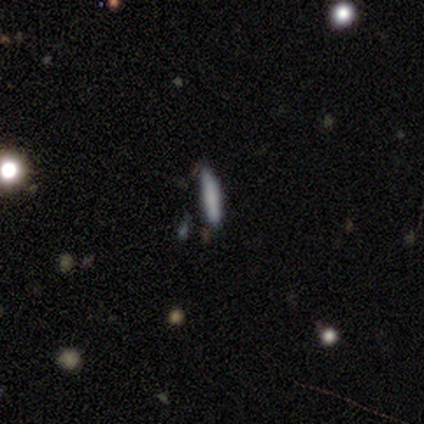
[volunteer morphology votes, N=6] This is possibly a smooth galaxy (50%). How rounded: likely cigar-shaped (67%). Merging: clearly none (80%).